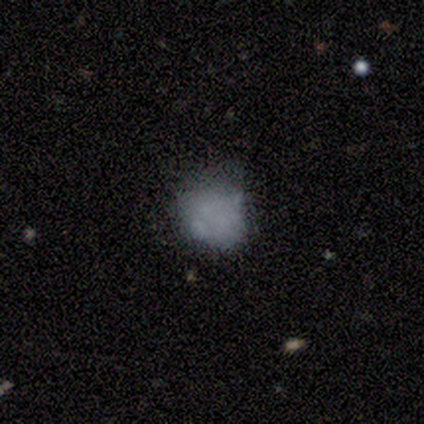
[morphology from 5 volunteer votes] Smooth or featured?
  - star or artifact: 60% *
  - smooth: 40%
  - featured or disk: 0%